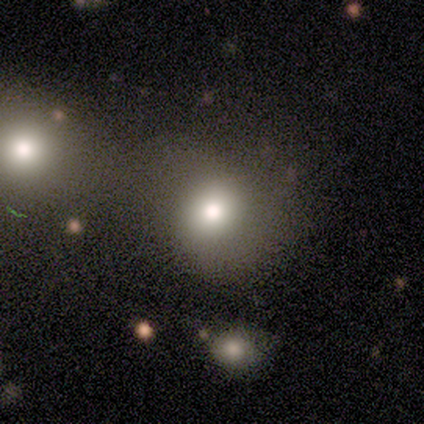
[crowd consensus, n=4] Smooth or featured?
  - smooth: 75% *
  - featured or disk: 25%
  - star or artifact: 0%
How rounded?
  - round: 67% *
  - in between: 33%
  - cigar-shaped: 0%
Merging?
  - none: 50% *
  - minor disturbance: 25%
  - merger: 25%
  - major disturbance: 0%